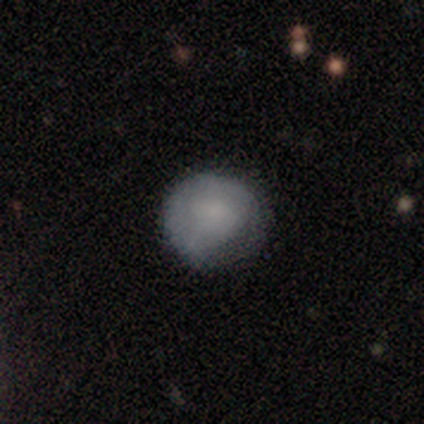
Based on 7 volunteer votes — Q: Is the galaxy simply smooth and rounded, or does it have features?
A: smooth — 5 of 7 (71%).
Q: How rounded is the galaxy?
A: round — 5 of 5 (100%).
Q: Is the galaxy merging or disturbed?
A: none — 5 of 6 (83%).